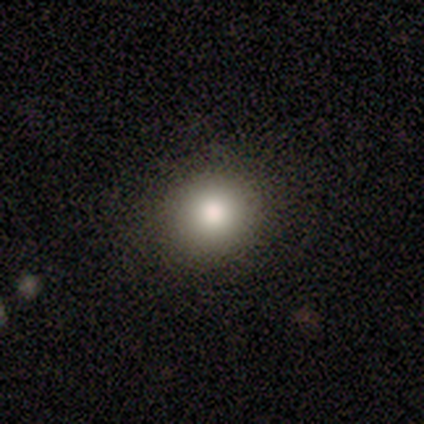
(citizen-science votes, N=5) Smooth or featured?
  - smooth: 60% *
  - featured or disk: 20%
  - star or artifact: 20%
How rounded?
  - round: 100% *
  - in between: 0%
  - cigar-shaped: 0%
Merging?
  - none: 75% *
  - minor disturbance: 25%
  - major disturbance: 0%
  - merger: 0%